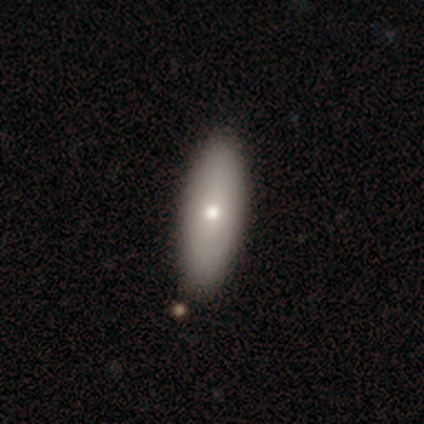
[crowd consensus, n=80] Overall: smooth (78%). How rounded: in between (69%; cigar-shaped 31%). Merging: none (63%).